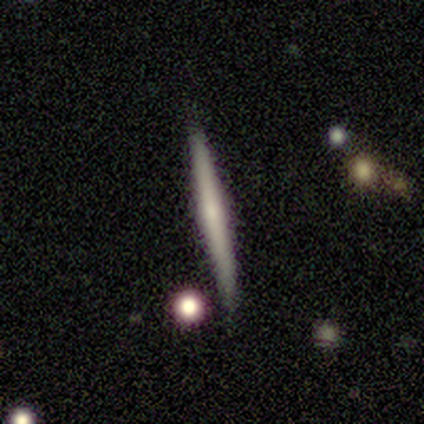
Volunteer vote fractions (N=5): Q: Smooth or featured?
A: smooth (80%); runner-up: star or artifact (20%)
Q: How rounded?
A: cigar-shaped (100%)
Q: Merging?
A: none (100%)